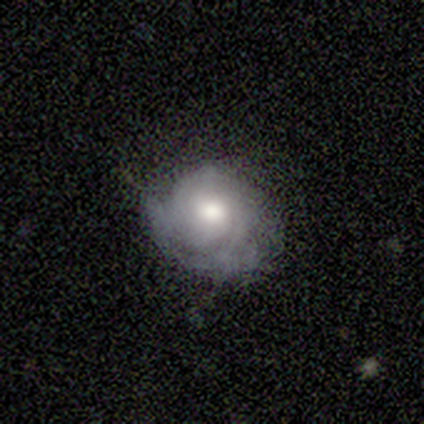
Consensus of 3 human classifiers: smooth_or_featured: smooth (p=0.67) [alt: star or artifact p=0.33]
how_rounded: round (p=0.50) [tied with: in between p=0.50]
merging: minor disturbance (p=0.50) [tied with: major disturbance p=0.50]